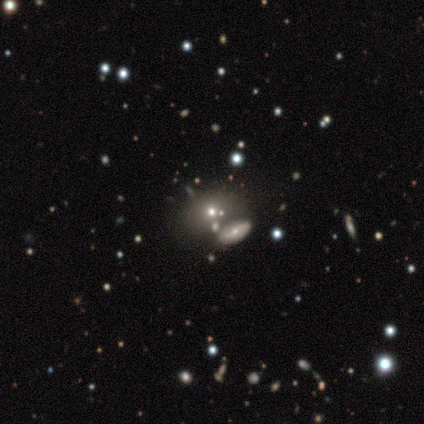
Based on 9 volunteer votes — Smooth or featured: featured or disk — 44% (star or artifact — 33%)
Edge-on disk: no — 75% (yes — 25%)
Bar: no — 100%
Spiral arms: yes — 67% (no — 33%)
Spiral winding: tight — 50% (tied with medium — 50%)
Spiral arm count: 2 — 50% (tied with more than 4 — 50%)
Bulge size: small — 67% (moderate — 33%)
Merging: none — 50% (minor disturbance — 33%)